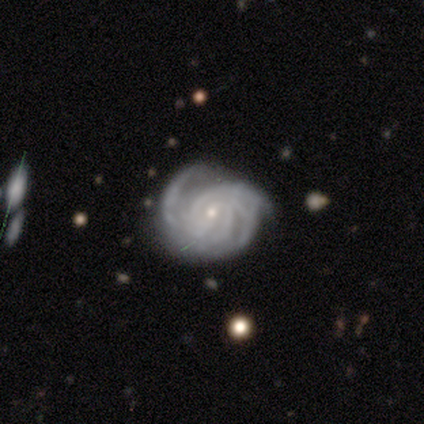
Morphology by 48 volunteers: This is clearly a featured or disk galaxy (90%). It is clearly not viewed edge-on (98%). Bar: likely no (67%). Spiral arm pattern: clearly yes (100%). Spiral arm count: marginally 3 (33%). Spiral winding: likely tight (64%). Central bulge: clearly small (86%). Merging: likely none (76%).